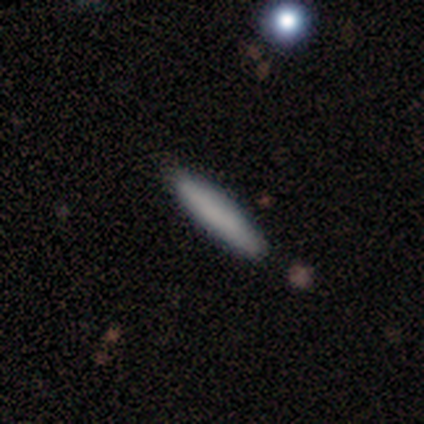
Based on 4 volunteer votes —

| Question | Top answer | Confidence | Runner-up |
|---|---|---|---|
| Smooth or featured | smooth | 100% | — |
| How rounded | cigar-shaped | 75% | in between (25%) |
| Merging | none | 75% | minor disturbance (25%) |